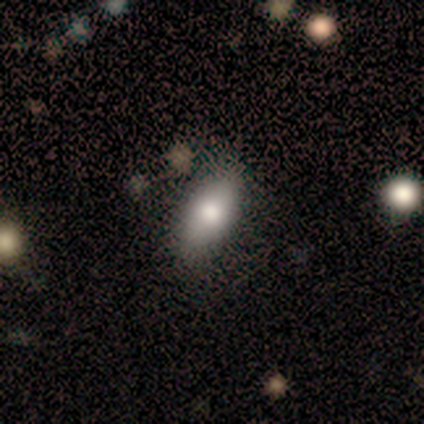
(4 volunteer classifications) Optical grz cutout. It shows a smooth galaxy with no disk features (100%) that is in between round and cigar-shaped (75%). Merging: none (75%).